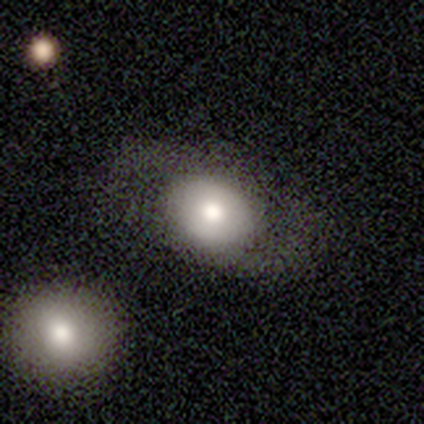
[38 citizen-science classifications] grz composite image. It shows a smooth galaxy with no disk features (61%) that is round (57%). Merging: none (74%).